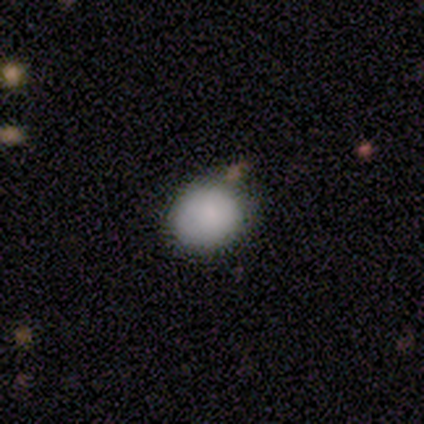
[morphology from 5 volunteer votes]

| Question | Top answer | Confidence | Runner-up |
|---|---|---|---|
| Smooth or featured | smooth | 80% | star or artifact (20%) |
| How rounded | round | 100% | — |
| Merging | none | 100% | — |